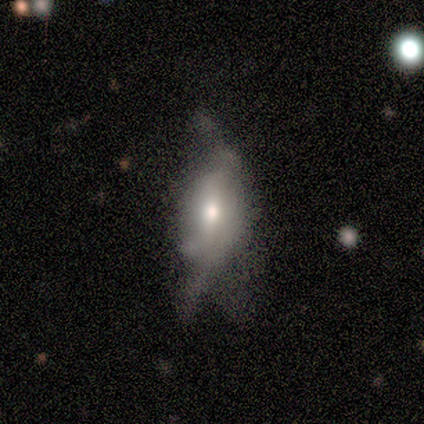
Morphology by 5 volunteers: This appears to be a featured or disk galaxy (60%) with no bar (100%), no spiral arms (100%) and a moderate central bulge (67%). Merging: none (40%, tied with major disturbance).